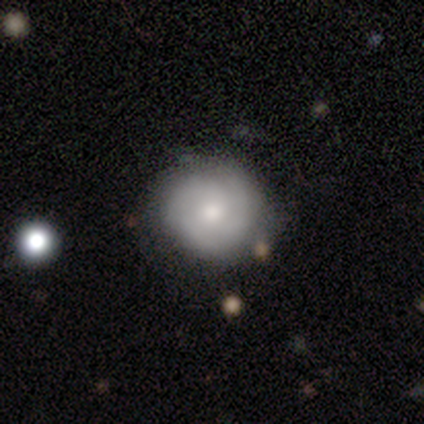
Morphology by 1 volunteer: Smooth or featured? featured or disk (100%)
Edge-on disk? no (100%)
Bar? no (100%)
Spiral arms? yes (100%)
Spiral winding? tight (100%)
Spiral arm count? 3 (100%)
Bulge size? moderate (100%)
Merging? minor disturbance (100%)